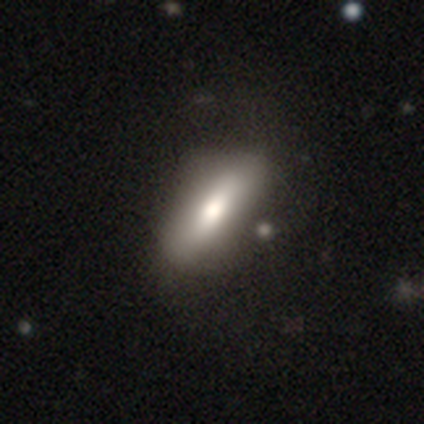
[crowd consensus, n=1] This is clearly a smooth galaxy (100%). How rounded: clearly cigar-shaped (100%). Merging: clearly none (100%).